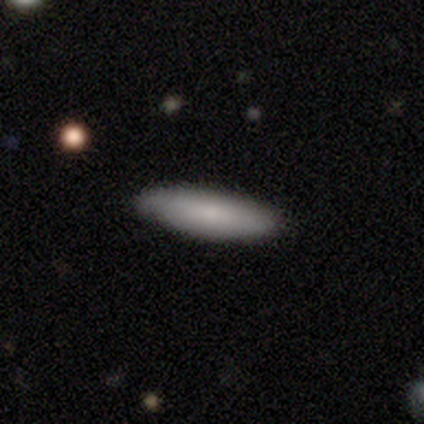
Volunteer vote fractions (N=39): smooth-or-featured: smooth: 72% | featured or disk: 21% | star or artifact: 8%
  how-rounded: cigar-shaped: 61% | in between: 39% | round: 0%
  merging: none: 81% | minor disturbance: 17% | major disturbance: 3% | merger: 0%